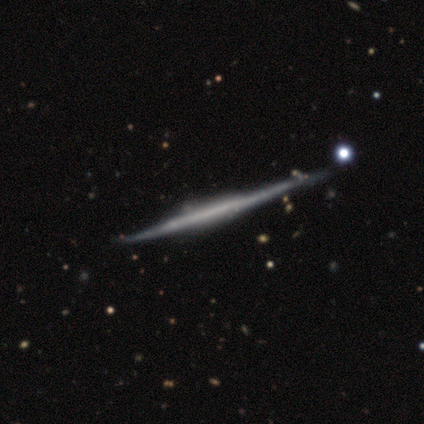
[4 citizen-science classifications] Smooth or featured: featured or disk — 100%
Edge-on disk: yes — 100%
Edge-on bulge: boxy — 50% (tied with none — 50%)
Merging: none — 75% (merger — 25%)